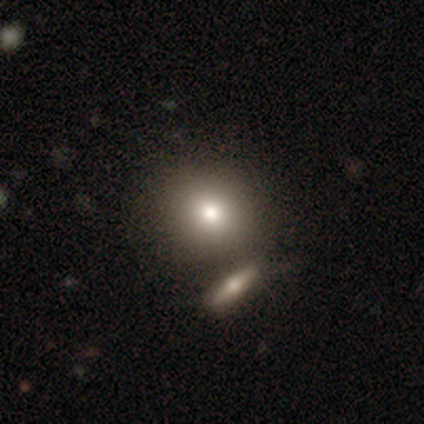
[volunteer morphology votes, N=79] smooth-or-featured: smooth: 86% | featured or disk: 10% | star or artifact: 4%
  how-rounded: round: 88% | in between: 10% | cigar-shaped: 1%
  merging: merger: 37% | none: 34% | minor disturbance: 8% | major disturbance: 1%